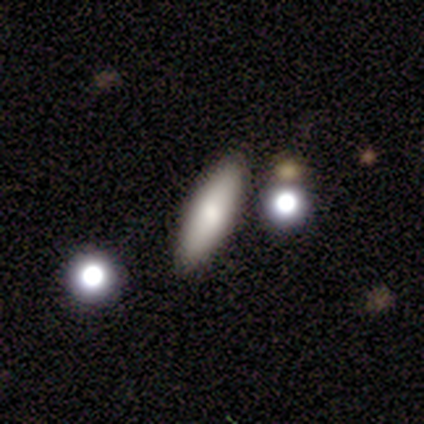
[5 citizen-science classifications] Smooth or featured: smooth — 80% (star or artifact — 20%)
How rounded: in between — 50% (tied with cigar-shaped — 50%)
Merging: none — 100%